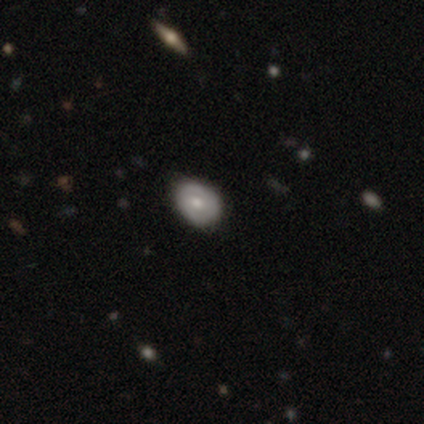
Smooth or featured? 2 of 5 (40%, tied with star or artifact) said smooth. How rounded? 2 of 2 (100%) said round. Merging? 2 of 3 (67%) said minor disturbance.